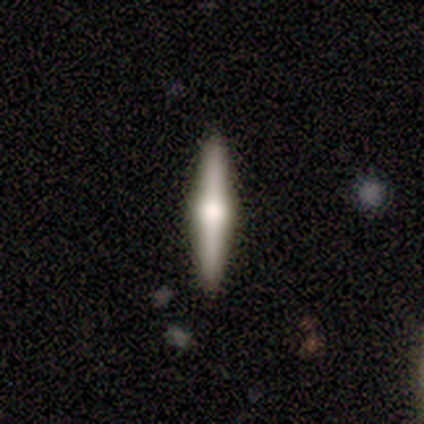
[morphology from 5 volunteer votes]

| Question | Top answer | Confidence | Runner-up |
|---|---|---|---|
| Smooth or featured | smooth | 40% | tied: featured or disk (40%) |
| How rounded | cigar-shaped | 100% | — |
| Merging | none | 100% | — |